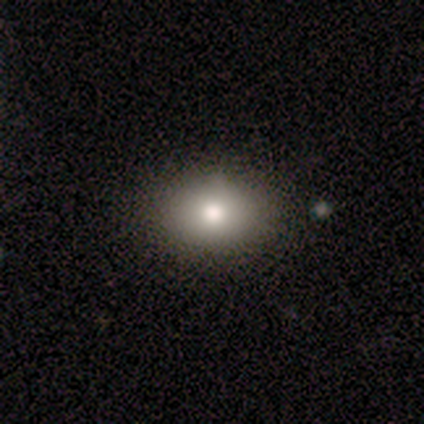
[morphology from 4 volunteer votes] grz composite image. It shows a smooth galaxy with no disk features (75%) that is in between round and cigar-shaped (100%). Merging: none (100%).